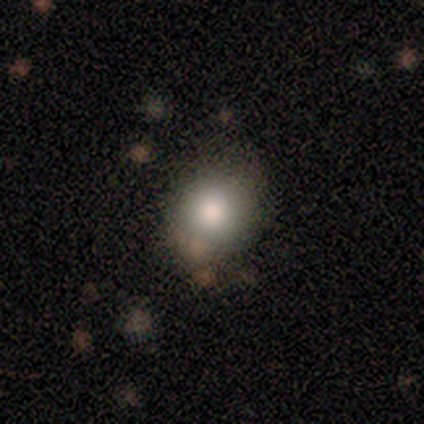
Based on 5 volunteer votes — Smooth or featured? smooth (80%)
How rounded? in between (75%)
Merging? none (100%)